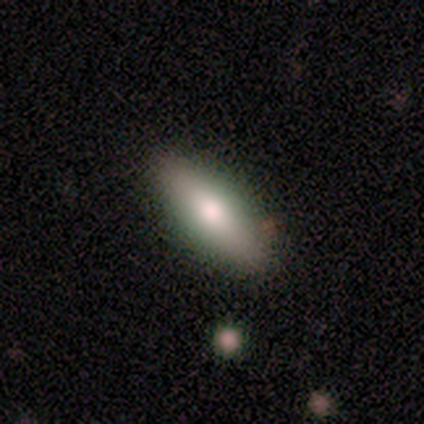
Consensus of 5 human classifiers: Q: Smooth or featured?
A: smooth (60%); runner-up: featured or disk (40%)
Q: How rounded?
A: cigar-shaped (67%); runner-up: in between (33%)
Q: Merging?
A: none (100%)